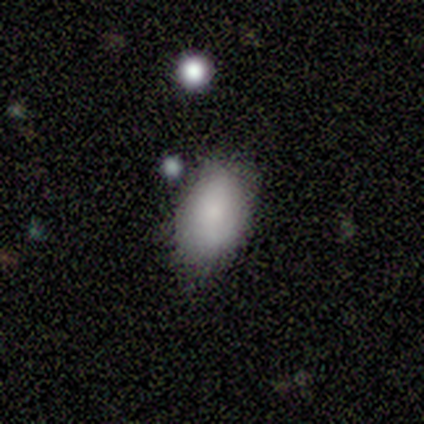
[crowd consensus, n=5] smooth-or-featured: smooth: 100% | featured or disk: 0% | star or artifact: 0%
  how-rounded: in between: 100% | round: 0% | cigar-shaped: 0%
  merging: none: 80% | minor disturbance: 20% | major disturbance: 0% | merger: 0%